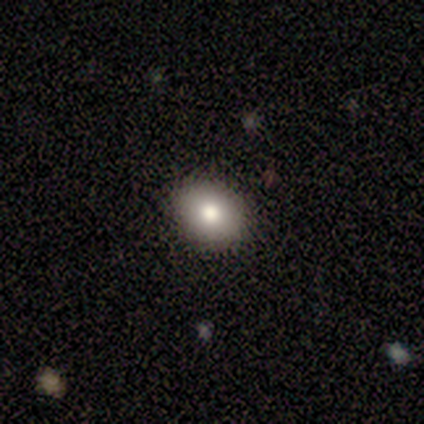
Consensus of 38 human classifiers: Overall: smooth (87%). How rounded: round (55%; in between 45%). Merging: none (97%).